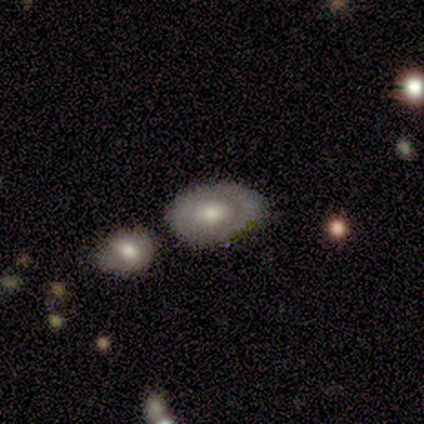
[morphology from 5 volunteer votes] A smooth galaxy with no disk features (100%) that is in between round and cigar-shaped (80%).

Vote fractions:
- Smooth or featured? smooth: 100% / featured or disk: 0% / star or artifact: 0%
- How rounded? in between: 80% / round: 20% / cigar-shaped: 0%
- Merging? minor disturbance: 60% / none: 40% / major disturbance: 0% / merger: 0%